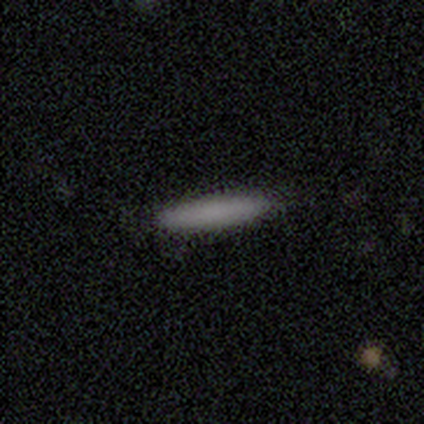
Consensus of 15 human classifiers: A smooth galaxy with no disk features (93%) that is cigar-shaped (93%).

Vote fractions:
- Smooth or featured? smooth: 93% / star or artifact: 7% / featured or disk: 0%
- How rounded? cigar-shaped: 93% / in between: 7% / round: 0%
- Merging? none: 86% / minor disturbance: 14% / major disturbance: 0% / merger: 0%